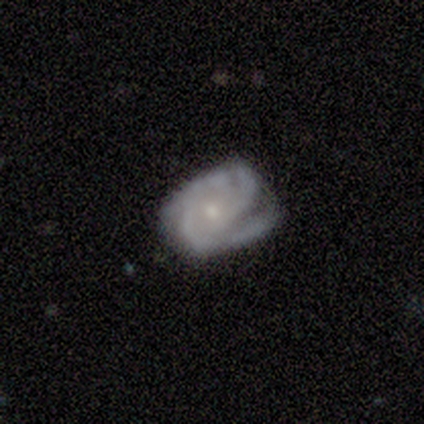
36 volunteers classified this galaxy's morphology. This is clearly a featured or disk galaxy (83%). It is clearly not viewed edge-on (97%). Bar: clearly no (93%). Spiral arm pattern: clearly yes (93%). Spiral arm count: marginally 2 (44%). Spiral winding: possibly tight (56%). Central bulge: clearly small (83%). Merging: possibly none (51%).